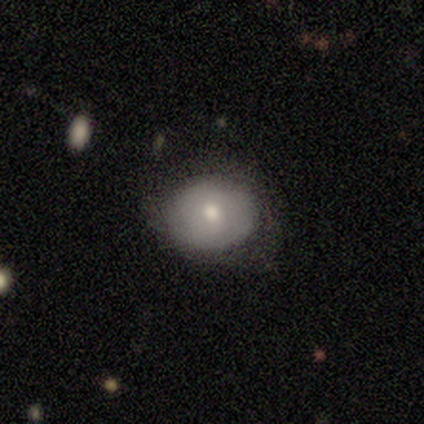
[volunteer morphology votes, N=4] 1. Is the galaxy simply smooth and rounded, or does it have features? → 75% smooth, 25% star or artifact, 0% featured or disk.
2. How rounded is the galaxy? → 67% round, 33% in between, 0% cigar-shaped.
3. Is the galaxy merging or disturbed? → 100% none, 0% minor disturbance, 0% major disturbance, 0% merger.